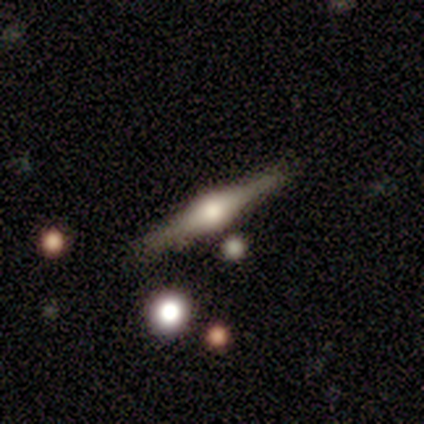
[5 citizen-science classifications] Volunteers were most divided on "smooth or featured": featured or disk: 60%, smooth: 20%, star or artifact: 20%. More confident: edge-on disk — yes (100%); edge-on bulge — rounded (100%); merging — none (100%).